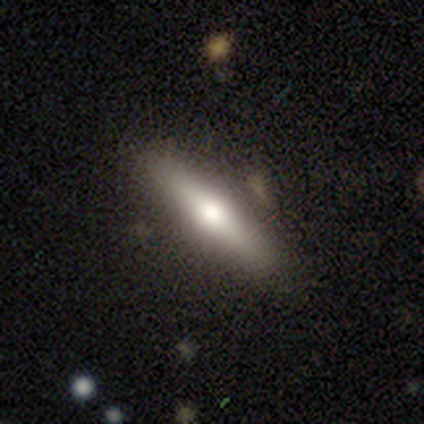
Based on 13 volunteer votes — Smooth or featured? featured or disk (62%)
Edge-on disk? yes (100%)
Edge-on bulge? rounded (100%)
Merging? none (85%)